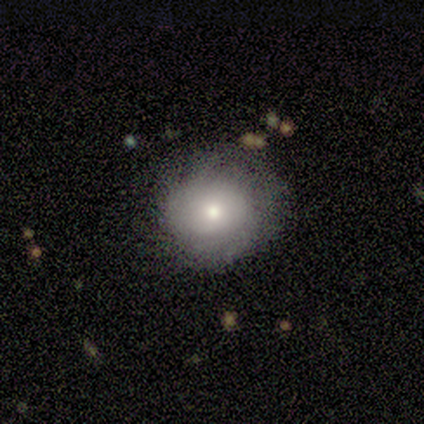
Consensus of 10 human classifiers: Smooth or featured? smooth (60%)
How rounded? round (83%)
Merging? none (50%)